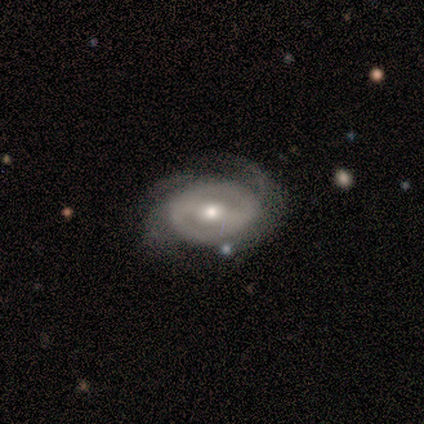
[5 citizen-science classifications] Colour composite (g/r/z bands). It shows a featured or disk galaxy (100%) with a strong bar (75%), tight (50%) spiral arms (100%) and a moderate central bulge (50%, tied with small). Merging: none (60%).